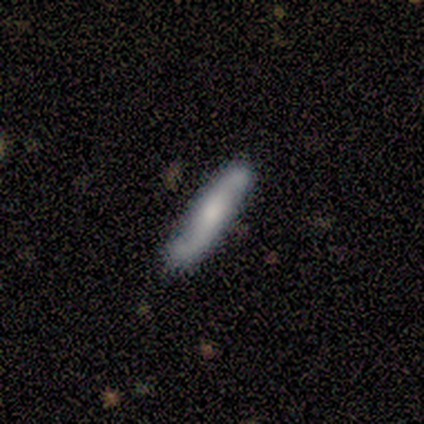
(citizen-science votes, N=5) Smooth or featured? 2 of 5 (40%, tied with featured or disk) said smooth. How rounded? 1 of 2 (50%, tied with cigar-shaped) said in between. Merging? 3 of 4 (75%) said none.